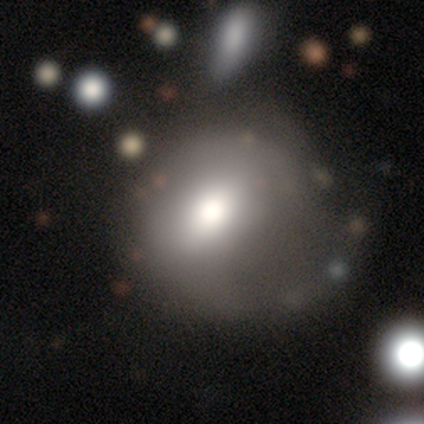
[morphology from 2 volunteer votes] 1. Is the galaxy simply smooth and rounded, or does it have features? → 100% smooth, 0% featured or disk, 0% star or artifact.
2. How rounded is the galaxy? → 50% round (tied), 50% in between (tied), 0% cigar-shaped.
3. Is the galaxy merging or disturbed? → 50% minor disturbance (tied), 50% major disturbance (tied), 0% none, 0% merger.